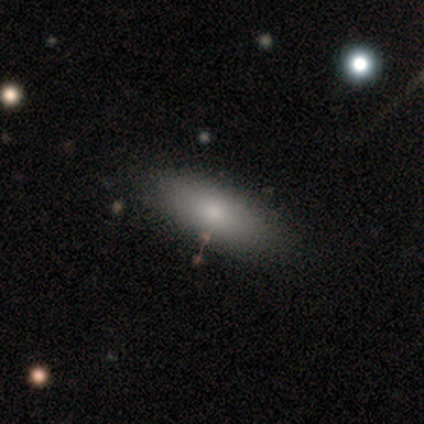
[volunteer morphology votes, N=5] smooth-or-featured: featured or disk: 80% | smooth: 20% | star or artifact: 0%
  disk-edge-on: no: 75% | yes: 25%
    bar: no: 100% | strong: 0% | weak: 0%
    has-spiral-arms: no: 100% | yes: 0%
    bulge-size: small: 67% | moderate: 33% | dominant: 0% | large: 0% | none: 0%
  merging: none: 100% | minor disturbance: 0% | major disturbance: 0% | merger: 0%